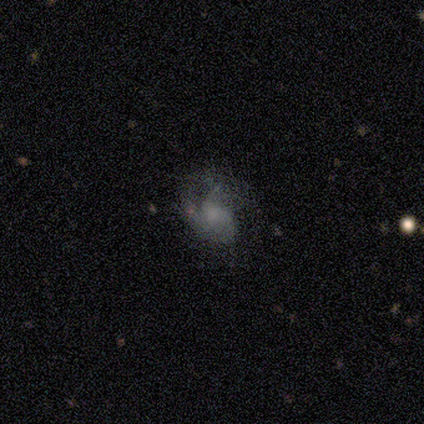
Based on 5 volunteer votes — A featured or disk galaxy (80%) with no bar (100%), no spiral arms (75%) and no central bulge (75%). Merging: minor disturbance (40%, tied with major disturbance).